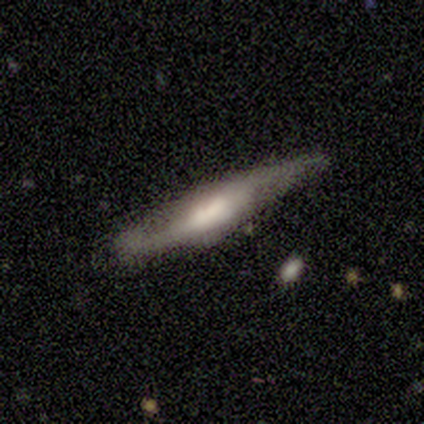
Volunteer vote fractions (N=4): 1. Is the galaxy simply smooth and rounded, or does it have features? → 75% smooth, 25% featured or disk, 0% star or artifact.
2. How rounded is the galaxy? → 67% cigar-shaped, 33% in between, 0% round.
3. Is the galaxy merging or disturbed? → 50% none, 25% minor disturbance, 25% major disturbance, 0% merger.